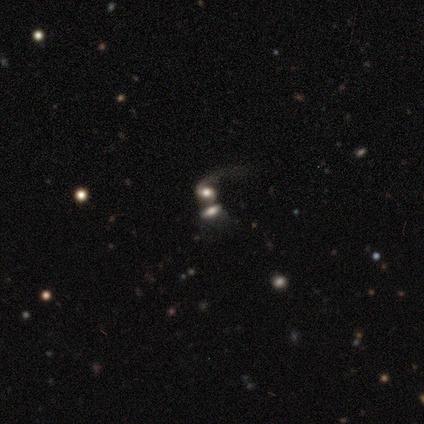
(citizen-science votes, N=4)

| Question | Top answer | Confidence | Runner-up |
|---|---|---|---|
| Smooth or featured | smooth | 50% | tied: star or artifact (50%) |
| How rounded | in between | 100% | — |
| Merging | merger | 100% | — |